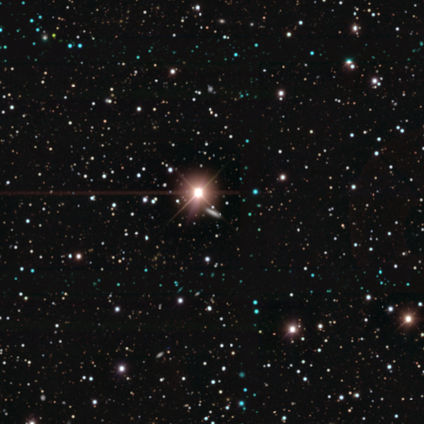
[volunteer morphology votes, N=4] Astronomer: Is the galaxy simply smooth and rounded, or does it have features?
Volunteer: star or artifact — 100%.